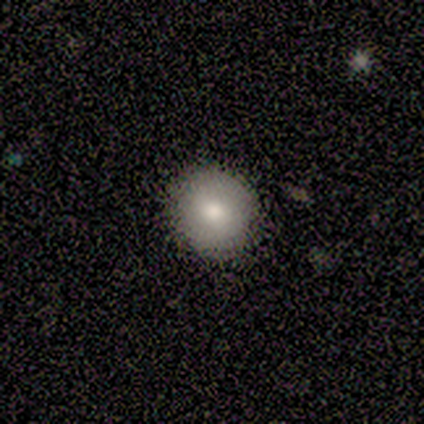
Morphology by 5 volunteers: A smooth galaxy with no disk features (60%) that is round (100%).

Vote fractions:
- Smooth or featured? smooth: 60% / featured or disk: 20% / star or artifact: 20%
- How rounded? round: 100% / in between: 0% / cigar-shaped: 0%
- Merging? none: 100% / minor disturbance: 0% / major disturbance: 0% / merger: 0%